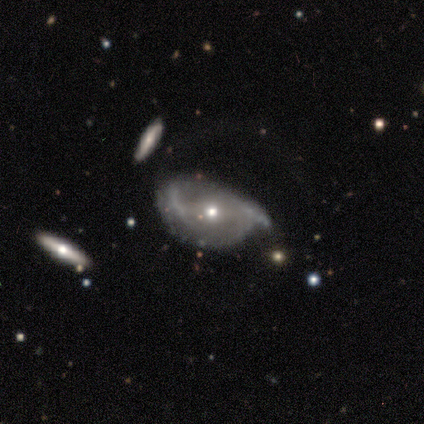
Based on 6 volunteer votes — This is likely a featured or disk galaxy (67%). It is likely not viewed edge-on (75%). Bar: likely no (67%). Spiral arm pattern: likely yes (67%). Spiral arm count: clearly 2 (100%). Spiral winding: possibly medium (50%, tied with loose). Central bulge: clearly small (100%). Merging: likely major disturbance (60%).